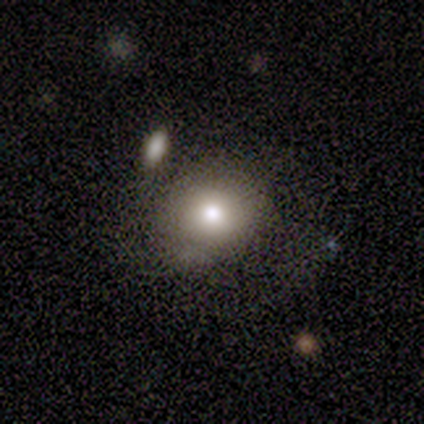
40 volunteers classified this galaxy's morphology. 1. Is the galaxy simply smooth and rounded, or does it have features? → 82% smooth, 10% featured or disk, 8% star or artifact.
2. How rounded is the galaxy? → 70% round, 24% in between, 6% cigar-shaped.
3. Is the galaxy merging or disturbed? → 57% none, 24% minor disturbance, 11% merger, 8% major disturbance.